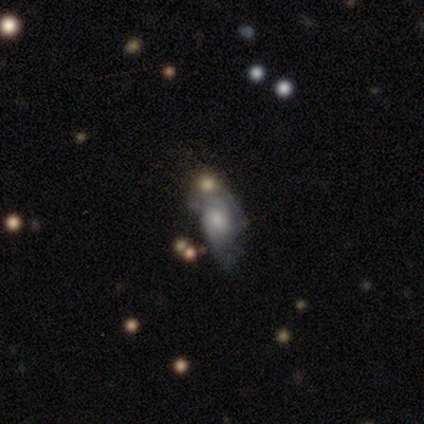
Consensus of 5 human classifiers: Smooth or featured? featured or disk (80%)
Edge-on disk? no (100%)
Bar? no (75%)
Spiral arms? yes (75%)
Spiral winding? medium (67%)
Spiral arm count? 2 (67%)
Bulge size? moderate (50%, tied with small)
Merging? none (40%, tied with minor disturbance)